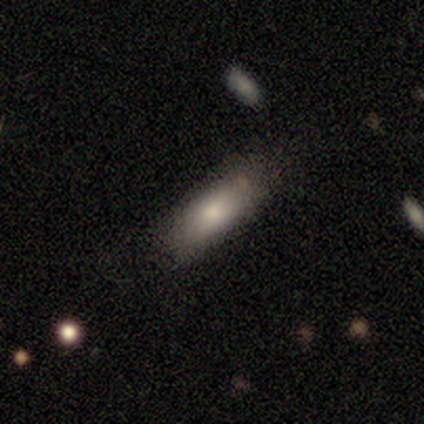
Smooth or featured? 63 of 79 (80%) said smooth. How rounded? 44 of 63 (70%) said in between. Merging? 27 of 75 (36%) said none.